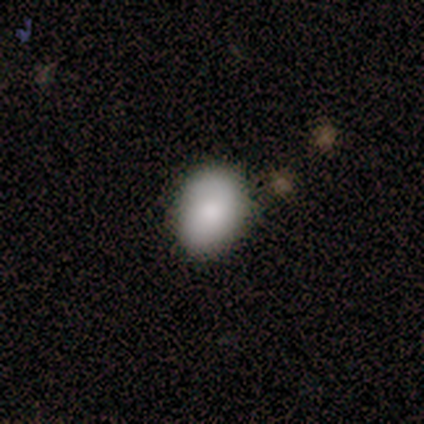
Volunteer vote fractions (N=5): Morphology: type=smooth (100%); roundness=round (60%); merging=none (80%).